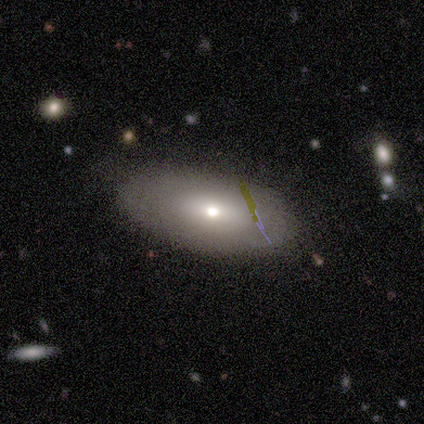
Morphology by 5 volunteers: type=smooth (60%); roundness=in between (100%); merging=none (100%).